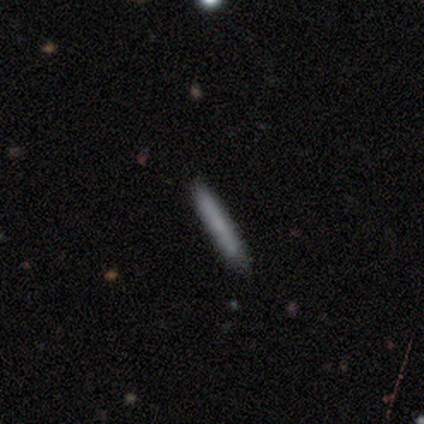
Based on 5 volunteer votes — Q: Smooth or featured?
A: smooth (100%)
Q: How rounded?
A: cigar-shaped (100%)
Q: Merging?
A: none (100%)